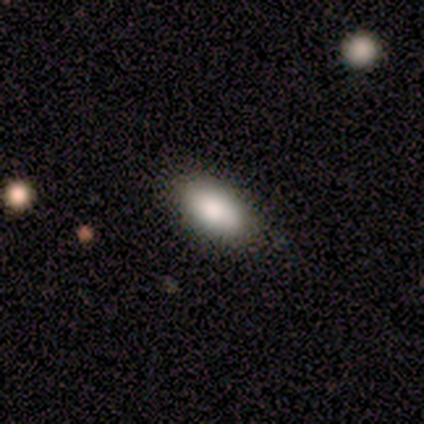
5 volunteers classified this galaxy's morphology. Smooth or featured: smooth — 100%
How rounded: in between — 100%
Merging: none — 100%